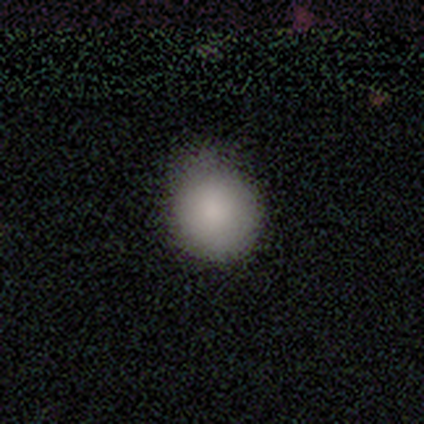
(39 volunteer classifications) Smooth or featured: smooth — 85% (star or artifact — 13%)
How rounded: round — 94% (in between — 6%)
Merging: none — 26% (minor disturbance — 24%)